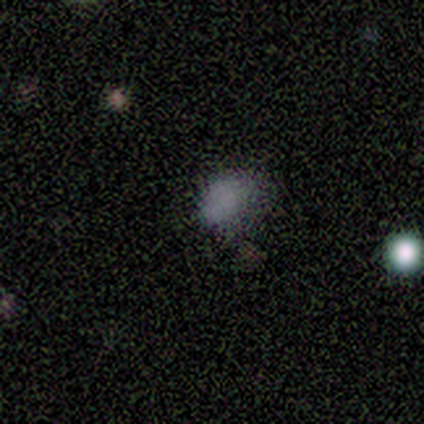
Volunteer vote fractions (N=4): smooth_or_featured: smooth (p=0.50) [alt: featured or disk p=0.25]
how_rounded: round (p=1.00)
merging: minor disturbance (p=0.67) [alt: none p=0.33]